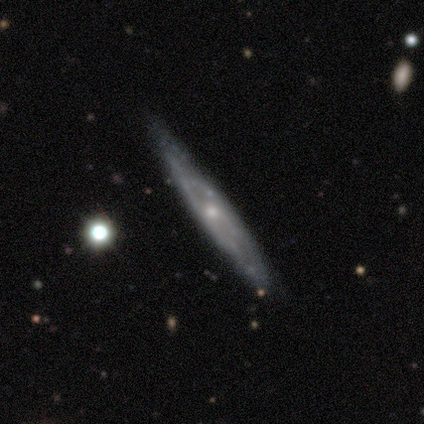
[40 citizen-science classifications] This is likely a featured or disk galaxy (72%). It is possibly viewed edge-on (55%). Edge-on bulge: likely rounded (62%). Merging: clearly none (82%).